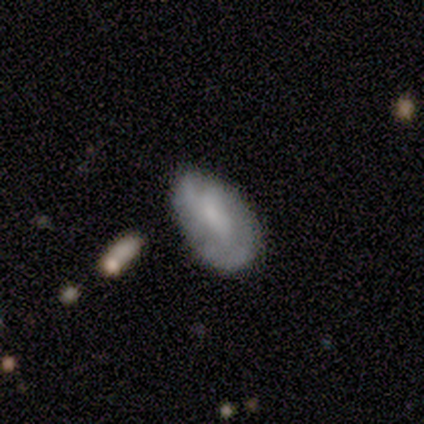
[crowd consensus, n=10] A smooth galaxy with no disk features (80%) that is in between round and cigar-shaped (100%). Merging: none (60%).